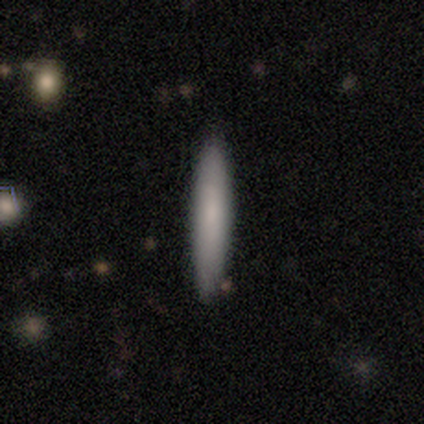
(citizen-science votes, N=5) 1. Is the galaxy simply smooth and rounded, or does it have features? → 80% smooth, 20% featured or disk, 0% star or artifact.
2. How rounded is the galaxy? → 100% cigar-shaped, 0% round, 0% in between.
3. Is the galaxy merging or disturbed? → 100% none, 0% minor disturbance, 0% major disturbance, 0% merger.